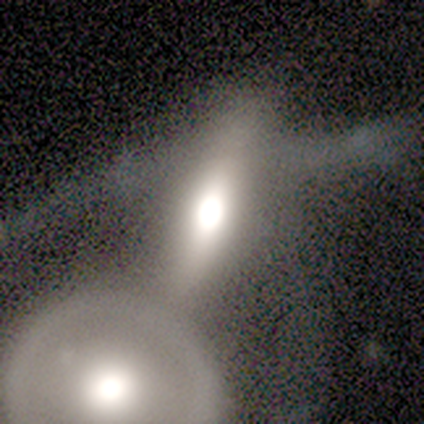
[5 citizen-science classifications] Volunteers were most divided on "edge-on disk" (2-way tie): yes: 50%, no: 50%; "merging" (2-way tie): major disturbance: 40%, merger: 40%, none: 20%, minor disturbance: 0%. More confident: edge-on bulge — rounded (100%); smooth or featured — featured or disk (80%).